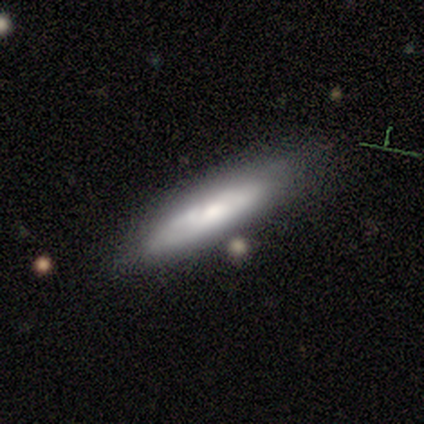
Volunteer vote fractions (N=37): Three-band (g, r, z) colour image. It shows a smooth galaxy with no disk features (54%) that is cigar-shaped (60%). Merging: none (53%).